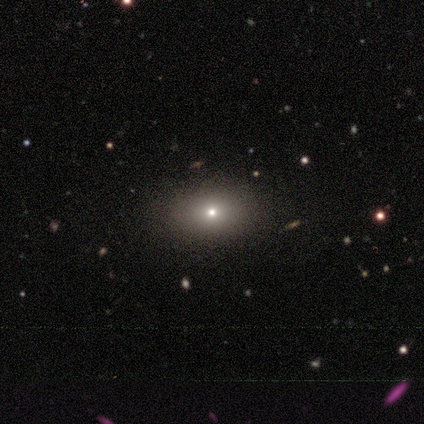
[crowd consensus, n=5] Morphology: type=smooth (60%); roundness=in between (67%); merging=none (75%).